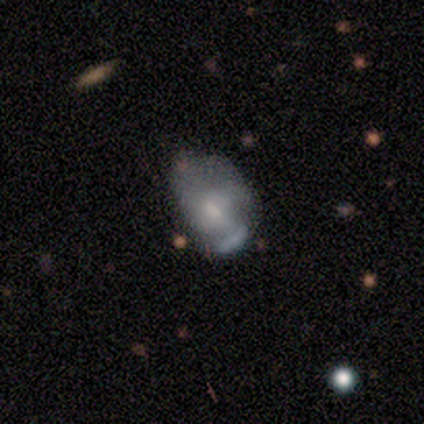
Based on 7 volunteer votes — Overall: featured or disk (43%; smooth 29%). Edge-on disk: no (100%). Bar: no (67%; weak 33%). Spiral arms: no (100%). Bulge size: small (67%; moderate 33%). Merging: major disturbance (60%; none 40%).